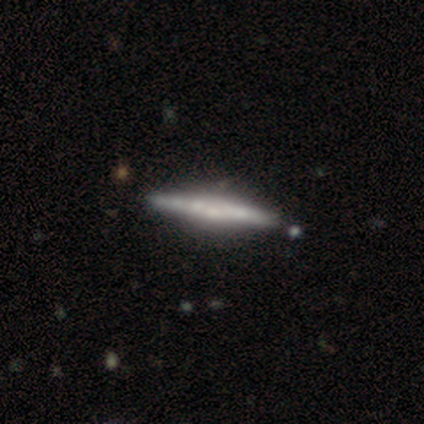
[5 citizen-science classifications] A featured or disk galaxy (80%) viewed edge-on (100%) with no central bulge (75%).

Vote fractions:
- Smooth or featured? featured or disk: 80% / smooth: 20% / star or artifact: 0%
- Edge-on disk? yes: 100% / no: 0%
- Edge-on bulge? none: 75% / boxy: 25% / rounded: 0%
- Merging? none: 80% / minor disturbance: 20% / major disturbance: 0% / merger: 0%